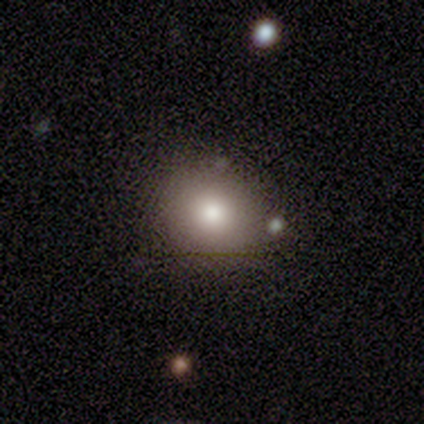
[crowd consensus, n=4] Consensus on every question: smooth or featured — smooth (100%); how rounded — round (100%); merging — none (100%).